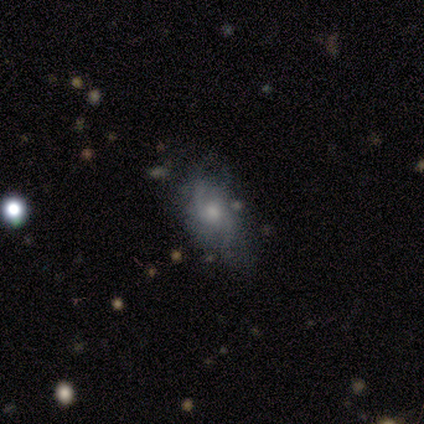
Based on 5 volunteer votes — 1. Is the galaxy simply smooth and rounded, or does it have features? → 60% featured or disk, 40% smooth, 0% star or artifact.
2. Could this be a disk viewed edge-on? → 100% no, 0% yes.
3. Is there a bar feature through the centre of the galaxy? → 100% no, 0% strong, 0% weak.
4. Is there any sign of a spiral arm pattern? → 67% yes, 33% no.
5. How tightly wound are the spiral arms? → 50% medium (tied), 50% loose (tied), 0% tight.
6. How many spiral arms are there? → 50% 2 (tied), 50% can't tell (tied), 0% 1, 0% 3, 0% 4, 0% more than 4.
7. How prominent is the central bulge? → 67% small, 33% moderate, 0% dominant, 0% large, 0% none.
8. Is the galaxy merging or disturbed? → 40% none (tied), 40% major disturbance (tied), 20% minor disturbance, 0% merger.